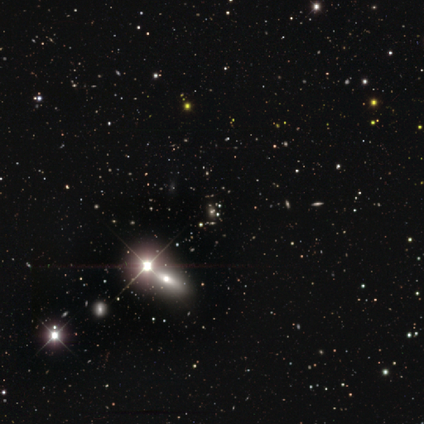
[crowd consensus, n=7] smooth_or_featured: star or artifact (p=0.57) [alt: smooth p=0.29]